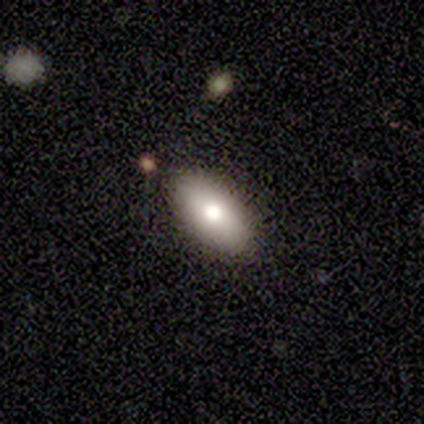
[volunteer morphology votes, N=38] Smooth or featured? smooth (68%)
How rounded? in between (85%)
Merging? none (100%)